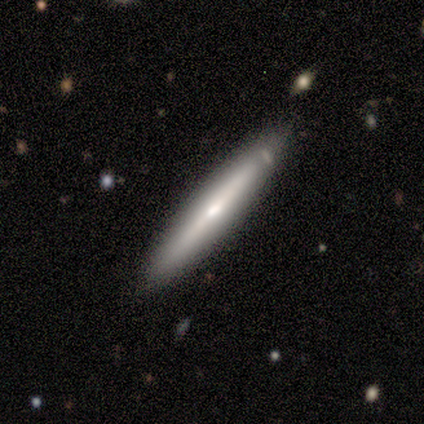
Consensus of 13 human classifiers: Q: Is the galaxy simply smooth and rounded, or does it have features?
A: featured or disk — 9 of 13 (69%).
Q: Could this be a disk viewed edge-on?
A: yes — 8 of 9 (89%).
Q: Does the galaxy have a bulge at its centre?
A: rounded — 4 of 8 (50%).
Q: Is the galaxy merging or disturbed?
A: none — 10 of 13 (77%).